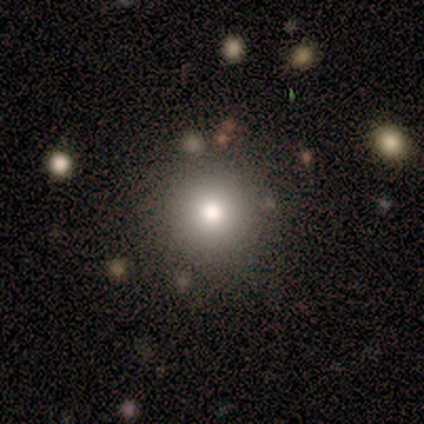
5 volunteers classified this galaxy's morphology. smooth_or_featured: smooth (p=0.80) [alt: featured or disk p=0.20]
how_rounded: round (p=1.00)
merging: none (p=0.80) [alt: minor disturbance p=0.20]